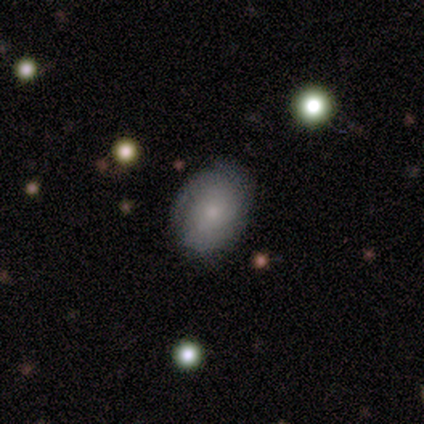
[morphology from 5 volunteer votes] Smooth or featured: featured or disk — 60% (smooth — 20%)
Edge-on disk: no — 100%
Bar: no — 100%
Spiral arms: yes — 67% (no — 33%)
Spiral winding: tight — 50% (tied with medium — 50%)
Spiral arm count: 2 — 50% (tied with can't tell — 50%)
Bulge size: small — 100%
Merging: none — 75% (merger — 25%)